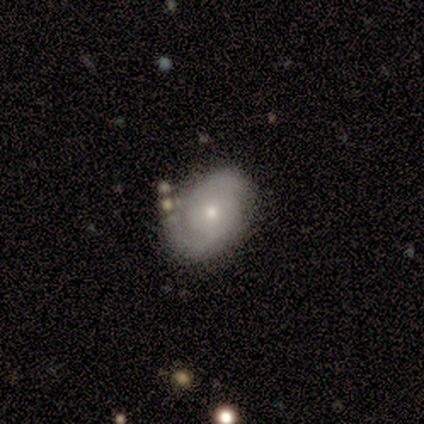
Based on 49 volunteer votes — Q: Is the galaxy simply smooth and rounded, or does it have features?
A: featured or disk — 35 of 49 (71%).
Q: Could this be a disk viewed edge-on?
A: no — 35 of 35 (100%).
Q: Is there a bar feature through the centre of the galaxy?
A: no — 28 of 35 (80%).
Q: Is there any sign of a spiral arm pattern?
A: yes — 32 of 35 (91%).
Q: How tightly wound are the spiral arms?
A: tight — 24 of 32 (75%).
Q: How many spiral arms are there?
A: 2 — 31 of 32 (97%).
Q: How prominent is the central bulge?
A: small — 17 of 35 (49%).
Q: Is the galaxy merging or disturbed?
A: none — 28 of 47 (60%).